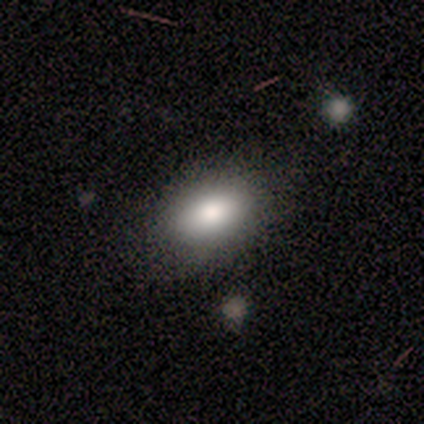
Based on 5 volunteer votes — Overall: smooth (100%). How rounded: in between (100%). Merging: none (80%).